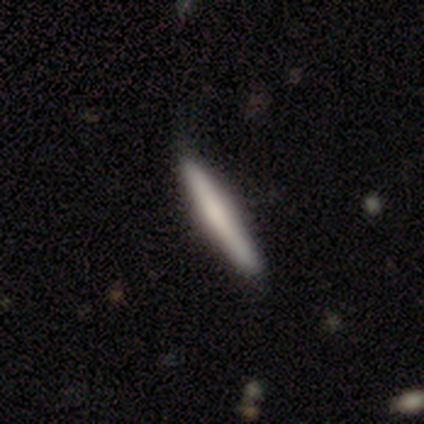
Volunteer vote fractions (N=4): A smooth galaxy with no disk features (75%) that is cigar-shaped (100%). Merging: none (100%).